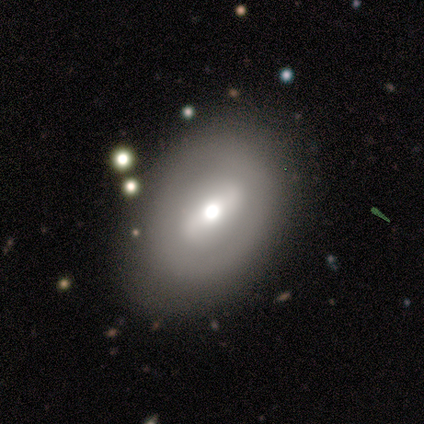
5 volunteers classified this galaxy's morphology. smooth_or_featured: featured or disk (p=1.00)
disk_edge_on: no (p=1.00)
bar: strong (p=0.60) [alt: weak p=0.20]
has_spiral_arms: no (p=0.80) [alt: yes p=0.20]
bulge_size: moderate (p=0.40) [tied with: small p=0.40]
merging: none (p=0.80) [alt: minor disturbance p=0.20]